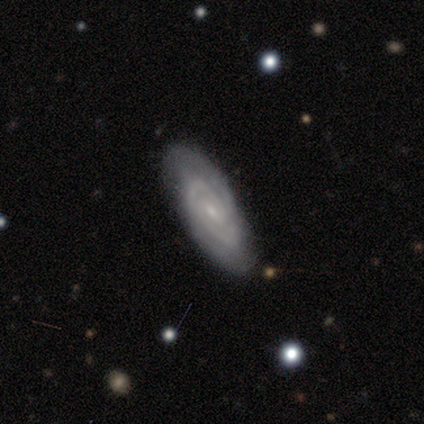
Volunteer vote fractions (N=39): A featured or disk galaxy (85%) with no bar (55%), 2 (60%) tight (63%) spiral arms (97%) and a small central bulge (90%). Merging: none (92%).